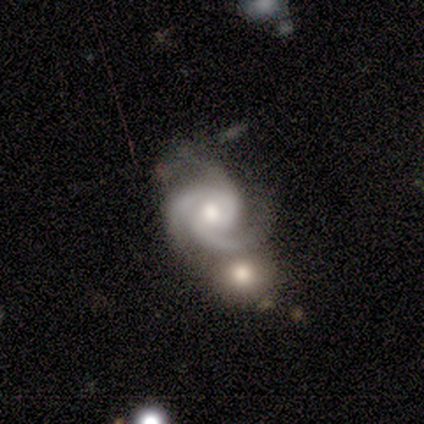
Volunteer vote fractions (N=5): smooth_or_featured: featured or disk (p=1.00)
disk_edge_on: no (p=1.00)
bar: no (p=1.00)
has_spiral_arms: yes (p=1.00)
spiral_winding: tight (p=0.40) [tied with: medium p=0.40]
spiral_arm_count: 3 (p=0.60) [alt: 2 p=0.40]
bulge_size: moderate (p=0.40) [tied with: small p=0.40]
merging: none (p=0.40) [tied with: merger p=0.40]